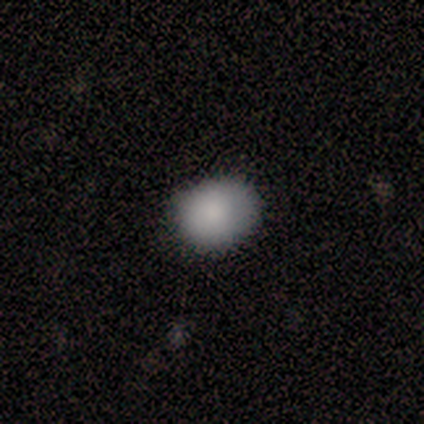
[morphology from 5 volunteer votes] A smooth galaxy with no disk features (80%) that is in between round and cigar-shaped (75%). Merging: none (80%).